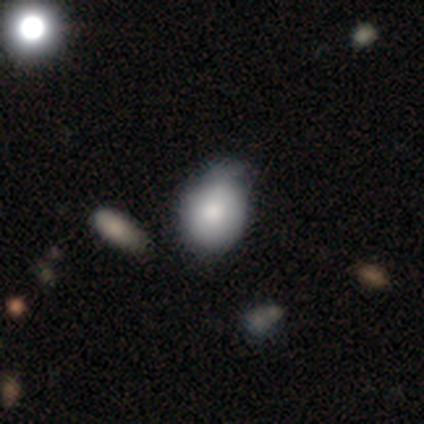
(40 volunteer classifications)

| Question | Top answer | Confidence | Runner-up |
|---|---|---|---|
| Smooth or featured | smooth | 85% | featured or disk (15%) |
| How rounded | round | 53% | in between (47%) |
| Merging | none | 32% | minor disturbance (30%) |